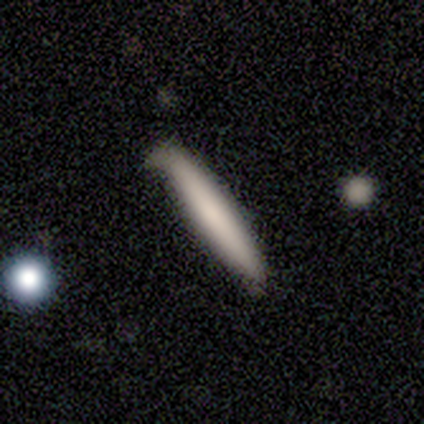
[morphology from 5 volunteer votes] This appears to be a smooth galaxy with no disk features (100%) that is cigar-shaped (100%). Merging: minor disturbance (60%).